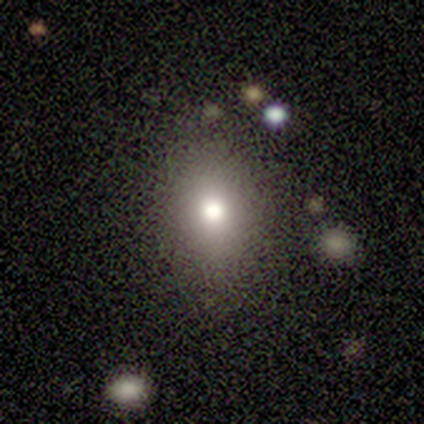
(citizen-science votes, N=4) Q: Smooth or featured?
A: smooth (50%); tied with: star or artifact (50%)
Q: How rounded?
A: in between (100%)
Q: Merging?
A: none (50%); tied with: minor disturbance (50%)